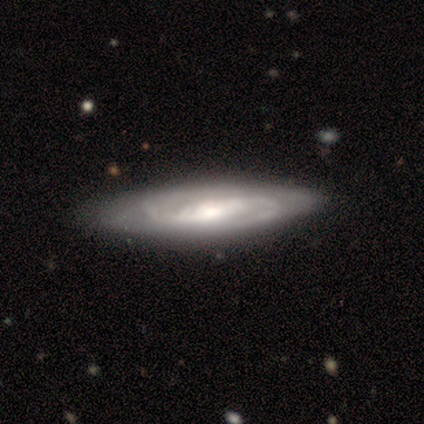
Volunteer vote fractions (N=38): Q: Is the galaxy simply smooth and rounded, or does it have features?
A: featured or disk — 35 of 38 (92%).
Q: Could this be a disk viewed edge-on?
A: no — 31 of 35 (89%).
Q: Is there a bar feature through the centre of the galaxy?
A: weak — 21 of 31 (68%).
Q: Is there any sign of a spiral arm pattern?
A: yes — 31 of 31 (100%).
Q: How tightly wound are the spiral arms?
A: medium — 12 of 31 (39%).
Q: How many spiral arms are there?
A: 2 — 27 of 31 (87%).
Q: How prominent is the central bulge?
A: moderate — 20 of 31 (65%).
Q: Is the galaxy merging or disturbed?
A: none — 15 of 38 (39%).